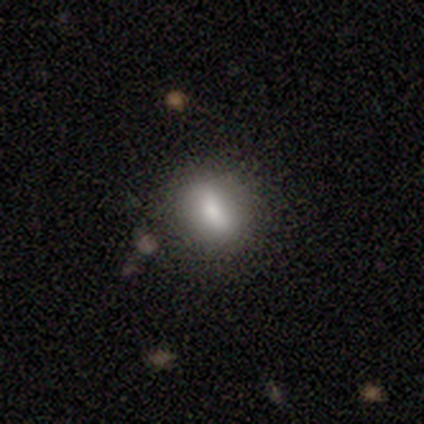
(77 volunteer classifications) Smooth or featured?
  - smooth: 81% *
  - featured or disk: 10%
  - star or artifact: 9%
How rounded?
  - round: 53% *
  - in between: 47%
  - cigar-shaped: 0%
Merging?
  - none: 50% *
  - minor disturbance: 7%
  - major disturbance: 4%
  - merger: 4%